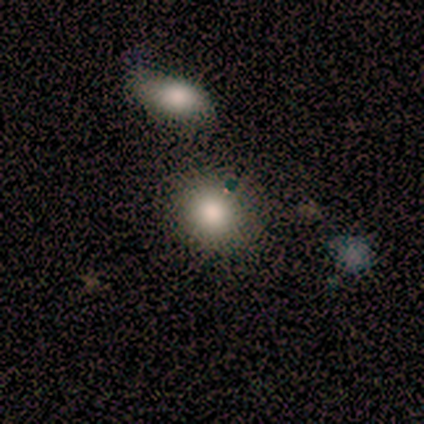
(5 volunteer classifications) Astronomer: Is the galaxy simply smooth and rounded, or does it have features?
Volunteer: smooth — 60% (runner-up: featured or disk, 40%).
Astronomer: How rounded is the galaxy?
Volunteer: round — 67%.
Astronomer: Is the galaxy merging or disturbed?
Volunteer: minor disturbance — 60%.